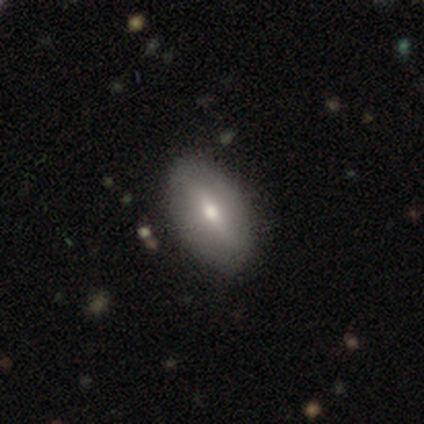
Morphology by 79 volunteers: Q: Smooth or featured?
A: smooth (48%); runner-up: featured or disk (44%)
Q: How rounded?
A: in between (89%); runner-up: cigar-shaped (8%)
Q: Merging?
A: none (44%); runner-up: minor disturbance (7%)